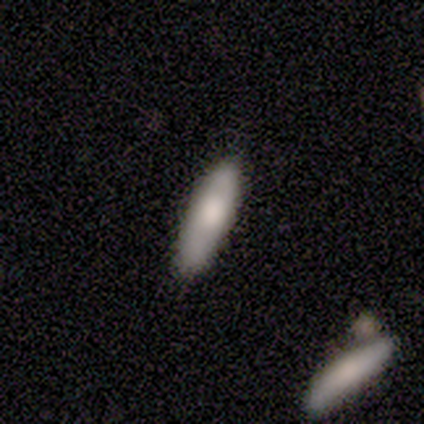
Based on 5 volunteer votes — Smooth or featured? 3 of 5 (60%) said smooth. How rounded? 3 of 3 (100%) said cigar-shaped. Merging? 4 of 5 (80%) said none.